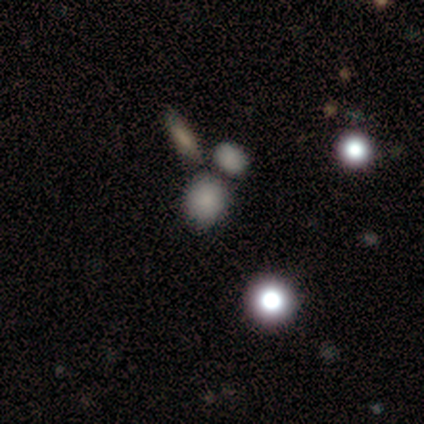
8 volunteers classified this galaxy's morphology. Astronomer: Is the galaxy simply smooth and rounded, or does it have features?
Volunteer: smooth — 62%.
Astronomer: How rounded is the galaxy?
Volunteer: in between — 60% (runner-up: round, 40%).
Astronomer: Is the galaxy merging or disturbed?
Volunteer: none — 71%.